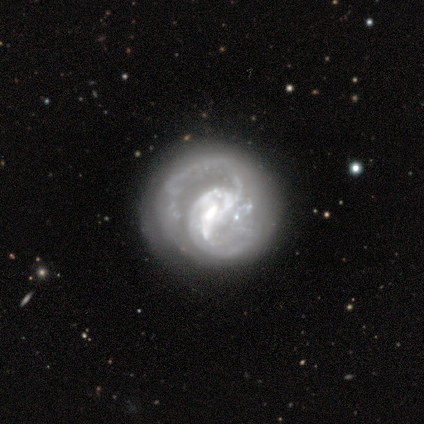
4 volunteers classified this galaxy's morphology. A featured or disk galaxy (100%) with a strong bar (75%), 2 (75%) tight (50%, tied with medium) spiral arms (100%) and a moderate central bulge (50%). Merging: none (75%).